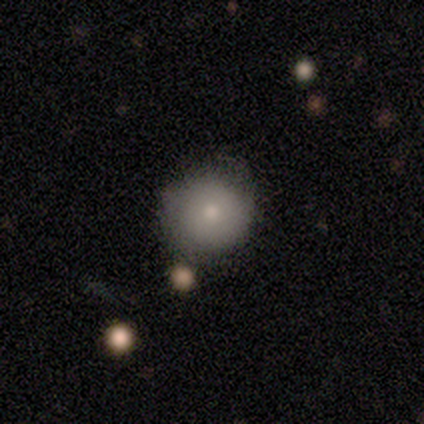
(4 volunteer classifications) Overall: smooth (75%). How rounded: round (100%). Merging: none (75%).